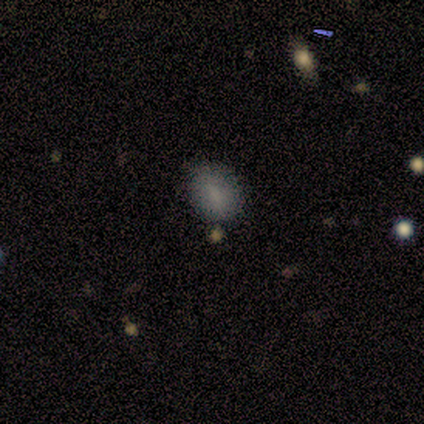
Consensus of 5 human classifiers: Smooth or featured? 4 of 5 (80%) said smooth. How rounded? 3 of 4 (75%) said round. Merging? 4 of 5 (80%) said none.